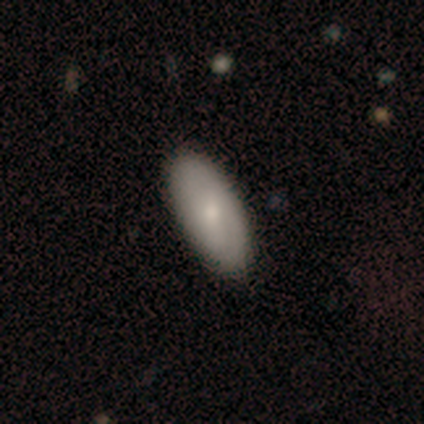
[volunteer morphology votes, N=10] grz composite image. It shows a smooth galaxy with no disk features (60%) that is in between round and cigar-shaped (83%). Merging: none (80%).